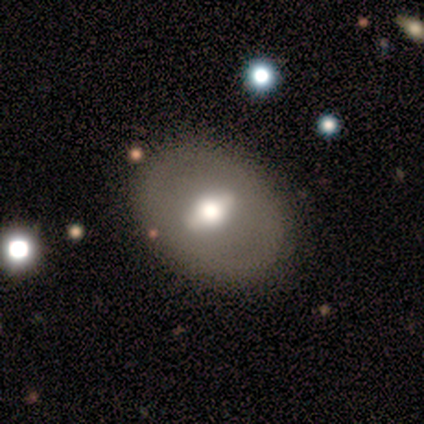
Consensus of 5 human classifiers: This appears to be a featured or disk galaxy (80%) viewed edge-on (50%, tied with no) with a rounded central bulge (100%). Merging: none (100%).